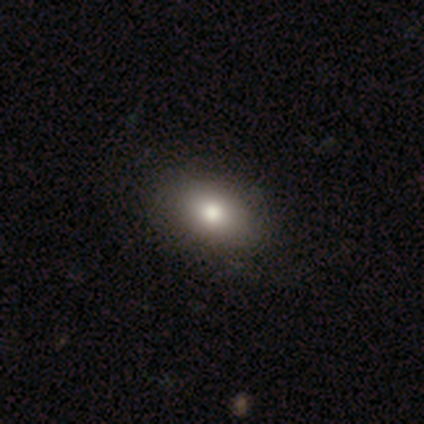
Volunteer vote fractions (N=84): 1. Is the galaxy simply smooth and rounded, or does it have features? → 82% smooth, 12% star or artifact, 6% featured or disk.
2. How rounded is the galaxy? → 77% in between, 22% round, 1% cigar-shaped.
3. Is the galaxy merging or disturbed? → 92% none, 4% major disturbance, 3% minor disturbance, 1% merger.